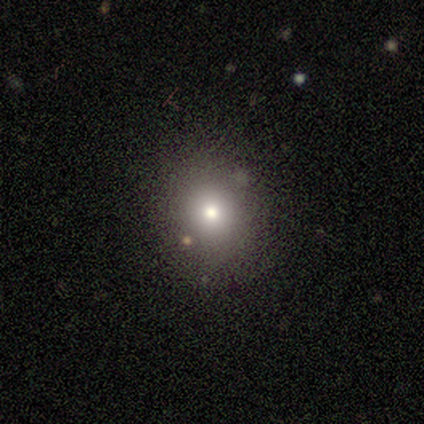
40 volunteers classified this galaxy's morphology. Smooth or featured? 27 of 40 (68%) said smooth. How rounded? 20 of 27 (74%) said round. Merging? 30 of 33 (91%) said none.